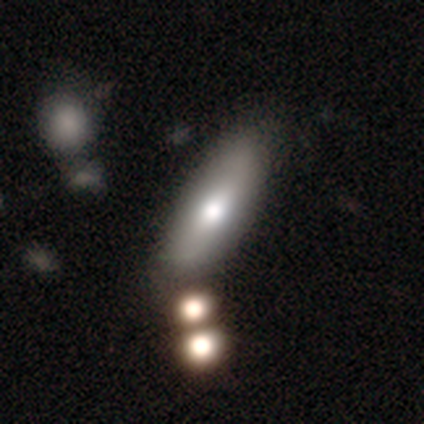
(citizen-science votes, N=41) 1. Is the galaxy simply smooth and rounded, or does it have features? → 76% smooth, 24% featured or disk, 0% star or artifact.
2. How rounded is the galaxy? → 55% in between, 45% cigar-shaped, 0% round.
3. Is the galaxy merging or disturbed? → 59% none, 12% merger, 7% minor disturbance, 0% major disturbance.